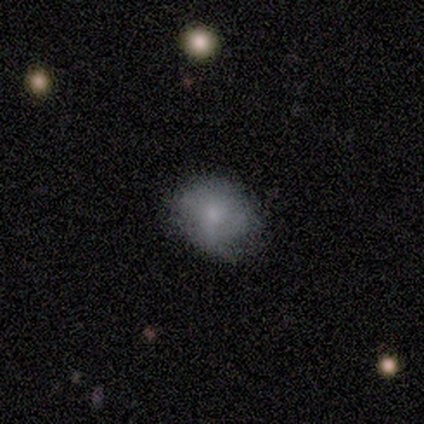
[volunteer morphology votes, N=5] Smooth or featured? 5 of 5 (100%) said smooth. How rounded? 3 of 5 (60%) said in between. Merging? 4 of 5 (80%) said none.